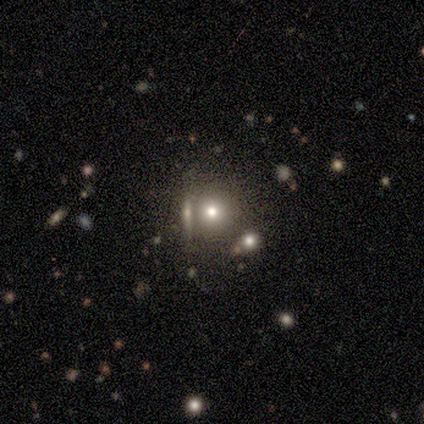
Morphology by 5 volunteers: Smooth or featured? 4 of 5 (80%) said smooth. How rounded? 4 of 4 (100%) said round. Merging? 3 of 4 (75%) said none.